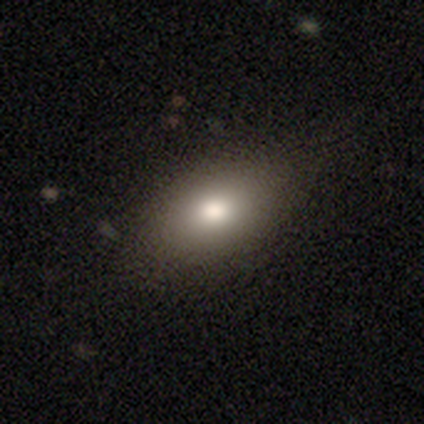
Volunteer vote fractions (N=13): Q: Smooth or featured?
A: smooth (85%); runner-up: featured or disk (8%)
Q: How rounded?
A: in between (100%)
Q: Merging?
A: none (83%); runner-up: minor disturbance (17%)